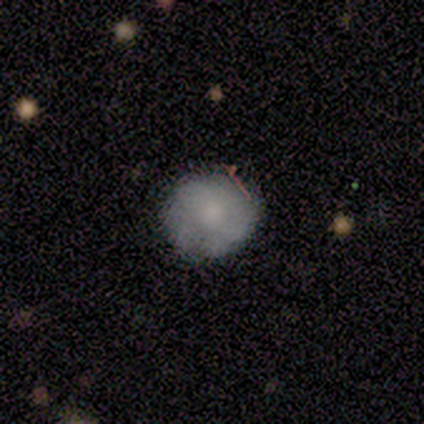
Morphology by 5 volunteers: Smooth or featured?
  - smooth: 60% *
  - featured or disk: 40%
  - star or artifact: 0%
How rounded?
  - round: 100% *
  - in between: 0%
  - cigar-shaped: 0%
Merging?
  - none: 80% *
  - minor disturbance: 20%
  - major disturbance: 0%
  - merger: 0%